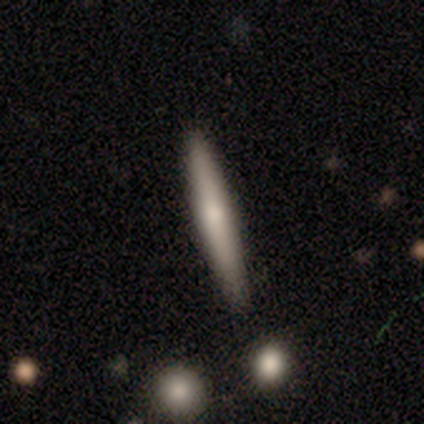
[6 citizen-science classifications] Overall: smooth (50%, tied with featured or disk). How rounded: cigar-shaped (100%). Merging: none (83%).